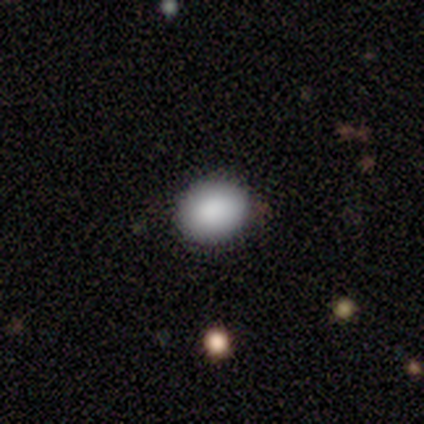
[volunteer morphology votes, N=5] This appears to be a smooth galaxy with no disk features (60%) that is round (67%). Merging: none (100%).